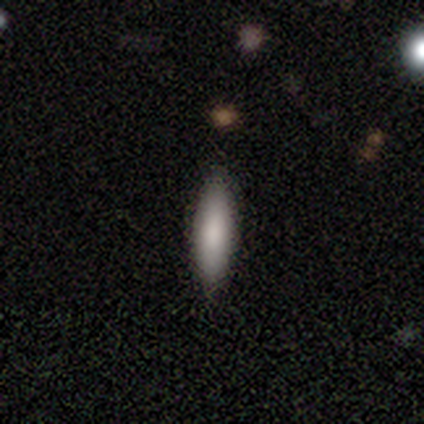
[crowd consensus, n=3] Overall: smooth (67%; star or artifact 33%). How rounded: cigar-shaped (100%). Merging: none (100%).